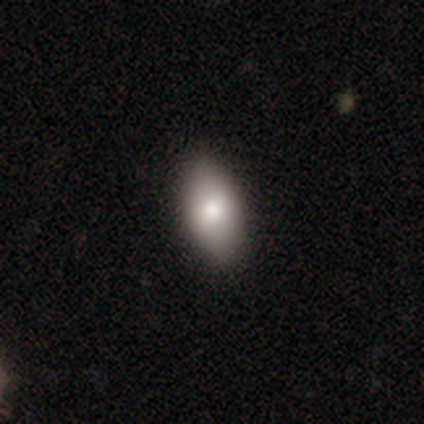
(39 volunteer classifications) smooth_or_featured: smooth (p=0.90) [alt: featured or disk p=0.08]
how_rounded: in between (p=0.94) [alt: round p=0.06]
merging: none (p=0.74) [alt: minor disturbance p=0.05]